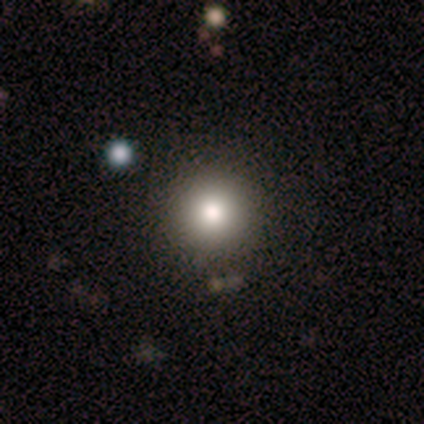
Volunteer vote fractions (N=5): smooth-or-featured: smooth: 80% | featured or disk: 20% | star or artifact: 0%
  how-rounded: round: 100% | in between: 0% | cigar-shaped: 0%
  merging: none: 80% | minor disturbance: 20% | major disturbance: 0% | merger: 0%